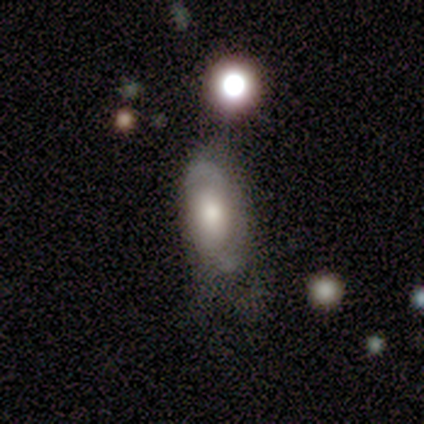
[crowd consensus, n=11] Volunteers were most divided on "spiral winding" (2-way tie): medium: 50%, loose: 50%, tight: 0%. More confident: edge-on disk — no (100%); bar — no (100%); spiral arm count — 2 (100%); spiral arms — yes (75%); smooth or featured — featured or disk (73%); merging — none (55%); bulge size — moderate (50%).